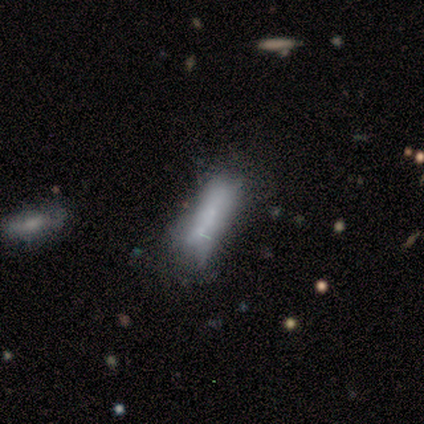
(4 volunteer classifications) Overall: featured or disk (50%; smooth 25%). Edge-on disk: yes (50%, tied with no). Edge-on bulge: none (100%). Merging: minor disturbance (67%; major disturbance 33%).